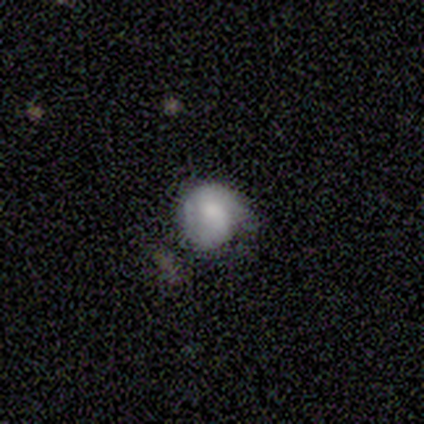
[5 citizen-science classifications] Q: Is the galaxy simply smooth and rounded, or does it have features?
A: smooth — 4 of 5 (80%).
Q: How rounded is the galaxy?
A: round — 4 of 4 (100%).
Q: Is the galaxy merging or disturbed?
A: none — 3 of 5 (60%).